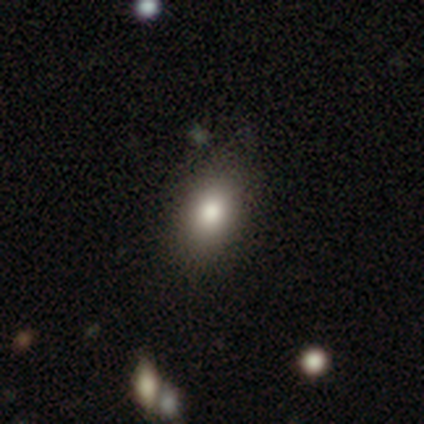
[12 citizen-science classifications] Morphology: type=smooth (67%); roundness=in between (88%); merging=none (70%).